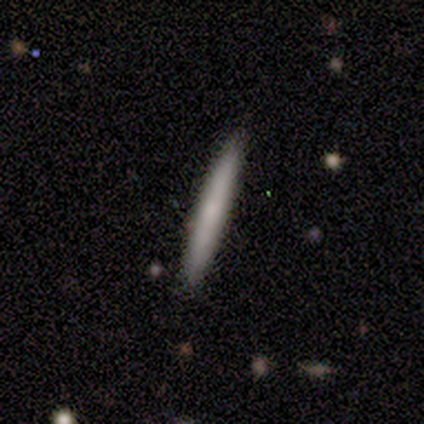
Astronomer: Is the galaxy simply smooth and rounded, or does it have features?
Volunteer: smooth — 100%.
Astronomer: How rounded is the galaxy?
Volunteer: cigar-shaped — 100%.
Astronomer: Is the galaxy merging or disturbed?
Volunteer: none — 100%.